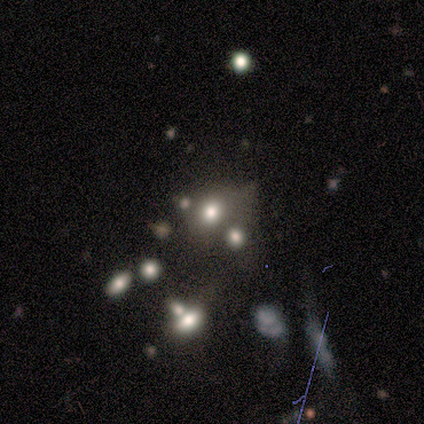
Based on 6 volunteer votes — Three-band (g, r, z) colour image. It shows a smooth galaxy with no disk features (50%) that is in between round and cigar-shaped (100%). Merging: none (75%).